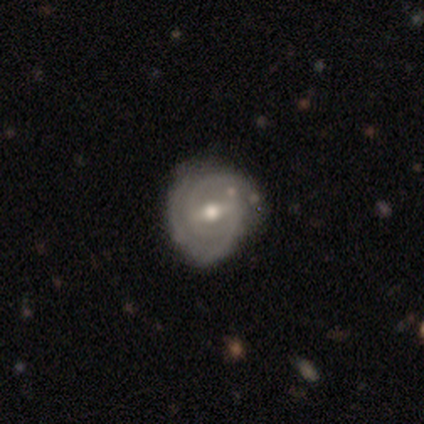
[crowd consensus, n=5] smooth-or-featured: featured or disk: 80% | smooth: 20% | star or artifact: 0%
  disk-edge-on: no: 100% | yes: 0%
    bar: strong: 50% | weak: 25% | no: 25%
    has-spiral-arms: yes: 100% | no: 0%
      spiral-winding: tight: 50% (tied) | medium: 50% (tied) | loose: 0%
      spiral-arm-count: 2: 75% | can't tell: 25% | 1: 0% | 3: 0% | 4: 0% | more than 4: 0%
    bulge-size: moderate: 75% | small: 25% | dominant: 0% | large: 0% | none: 0%
  merging: none: 80% | minor disturbance: 20% | major disturbance: 0% | merger: 0%